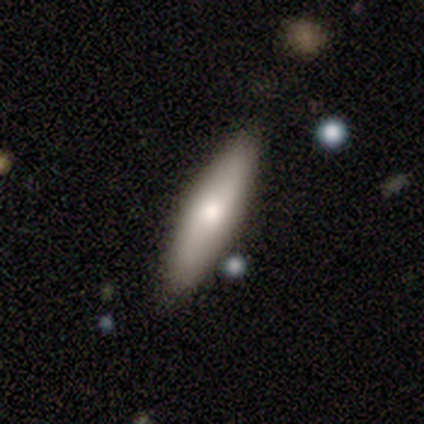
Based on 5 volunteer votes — Smooth or featured: smooth — 40% (tied with featured or disk — 40%)
How rounded: cigar-shaped — 100%
Merging: none — 100%